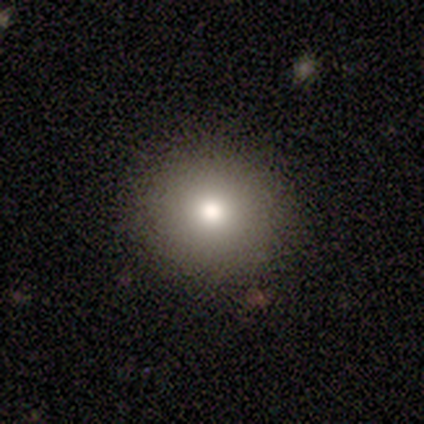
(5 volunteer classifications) smooth_or_featured: smooth (p=0.60) [alt: featured or disk p=0.40]
how_rounded: round (p=1.00)
merging: none (p=1.00)